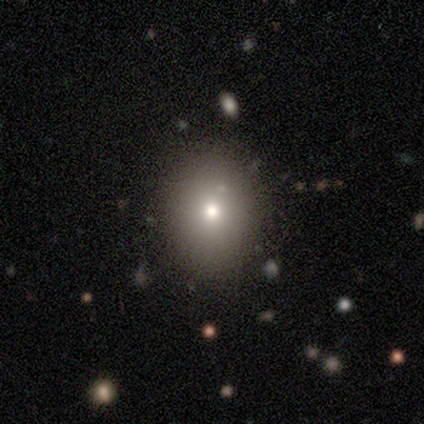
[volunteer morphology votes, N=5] type=smooth (60%); roundness=in between (67%); merging=none (100%).